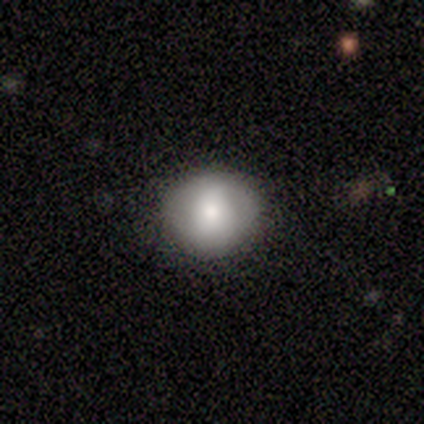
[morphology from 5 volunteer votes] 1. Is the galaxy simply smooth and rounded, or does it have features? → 80% smooth, 20% star or artifact, 0% featured or disk.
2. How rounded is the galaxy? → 100% round, 0% in between, 0% cigar-shaped.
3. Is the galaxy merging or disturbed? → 75% none, 25% minor disturbance, 0% major disturbance, 0% merger.